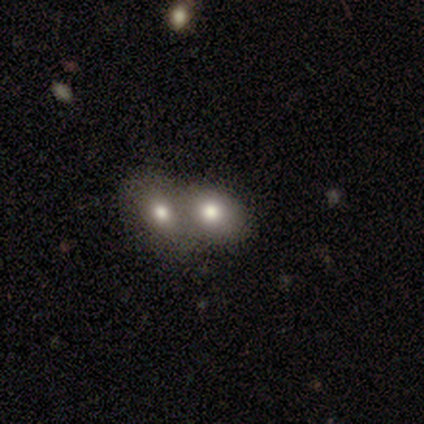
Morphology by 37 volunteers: smooth-or-featured: smooth: 70% | featured or disk: 22% | star or artifact: 8%
  how-rounded: in between: 69% | round: 31% | cigar-shaped: 0%
  merging: merger: 74% | none: 12% | minor disturbance: 12% | major disturbance: 3%